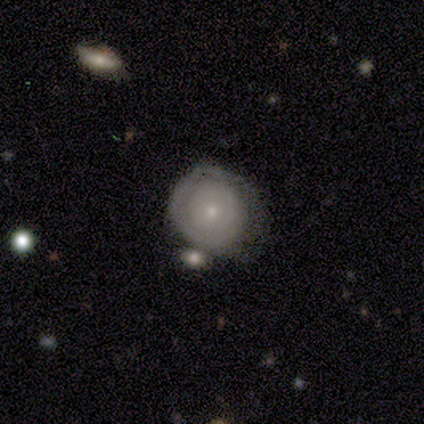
smooth-or-featured: smooth: 50% (tied) | featured or disk: 50% (tied) | star or artifact: 0%
  how-rounded: round: 100% | in between: 0% | cigar-shaped: 0%
  merging: major disturbance: 50% | none: 25% | merger: 25% | minor disturbance: 0%